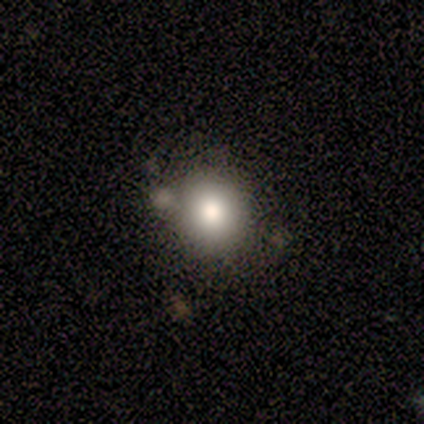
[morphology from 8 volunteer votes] Q: Smooth or featured?
A: smooth (62%); runner-up: star or artifact (25%)
Q: How rounded?
A: round (80%); runner-up: in between (20%)
Q: Merging?
A: none (67%); runner-up: minor disturbance (33%)